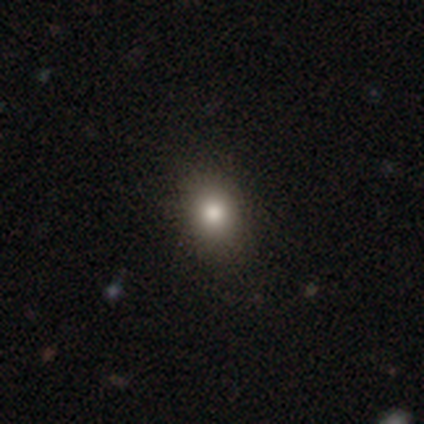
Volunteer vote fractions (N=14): Overall: smooth (79%). How rounded: round (55%; in between 45%). Merging: none (79%).